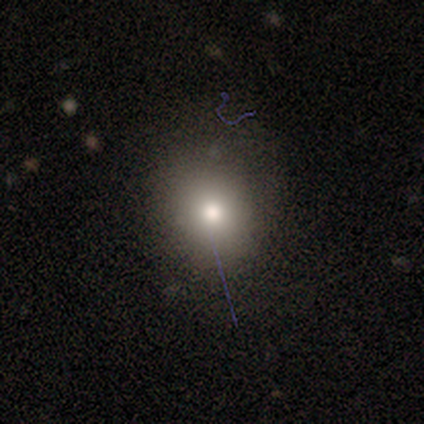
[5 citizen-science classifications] Q: Smooth or featured?
A: smooth (100%)
Q: How rounded?
A: round (100%)
Q: Merging?
A: none (100%)